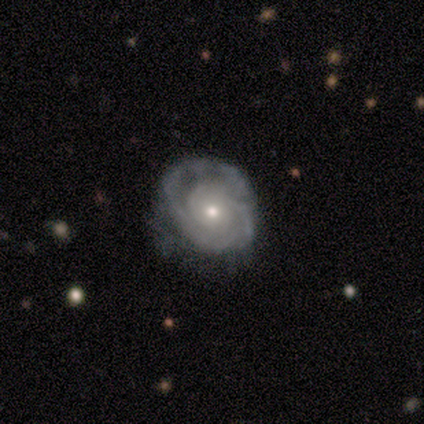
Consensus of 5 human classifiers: featured or disk 100%, smooth 0%, star or artifact 0%. Down the decision tree: edge-on disk — no (100%); bar — no (80%); spiral arms — yes (100%); spiral arm count — 3 (40%); spiral winding — tight (100%); bulge size — moderate (80%); merging — minor disturbance (40%, tied with major disturbance).